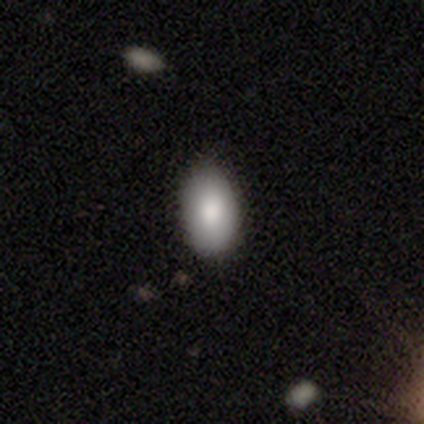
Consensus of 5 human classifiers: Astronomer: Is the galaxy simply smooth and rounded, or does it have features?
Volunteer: smooth — 80%.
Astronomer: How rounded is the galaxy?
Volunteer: in between — 100%.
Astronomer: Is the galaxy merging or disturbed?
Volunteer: none — 75%.